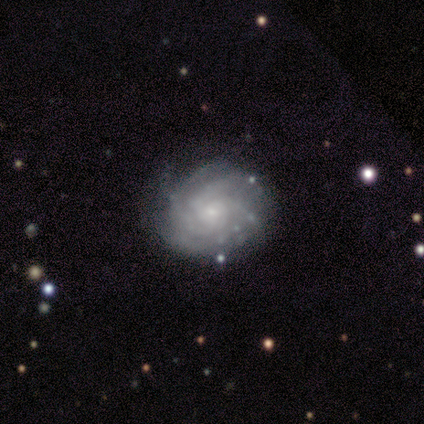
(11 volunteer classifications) smooth_or_featured: featured or disk (p=0.91) [alt: smooth p=0.09]
disk_edge_on: no (p=1.00)
bar: no (p=0.80) [alt: weak p=0.20]
has_spiral_arms: yes (p=1.00)
spiral_winding: tight (p=1.00)
spiral_arm_count: can't tell (p=0.60) [alt: 3 p=0.20]
bulge_size: small (p=0.70) [alt: moderate p=0.20]
merging: none (p=0.91) [alt: minor disturbance p=0.09]